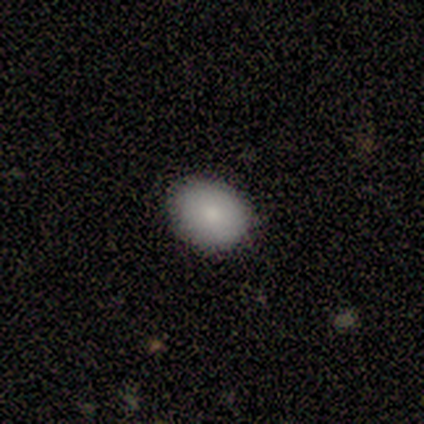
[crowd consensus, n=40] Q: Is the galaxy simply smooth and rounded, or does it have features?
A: smooth — 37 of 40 (92%).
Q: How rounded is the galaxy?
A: in between — 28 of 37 (76%).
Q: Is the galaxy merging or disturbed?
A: none — 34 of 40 (85%).